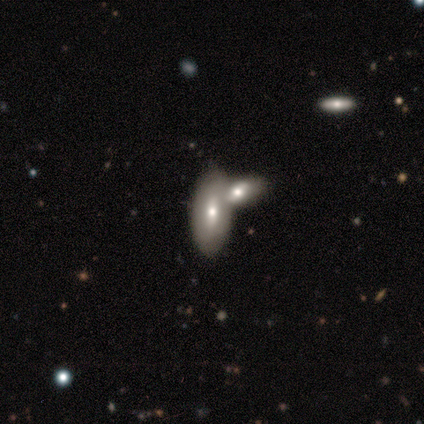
A smooth galaxy with no disk features (40%, tied with featured or disk) that is in between round and cigar-shaped (50%, tied with cigar-shaped).

Vote fractions:
- Smooth or featured? smooth: 40% (tied) / featured or disk: 40% (tied) / star or artifact: 20%
- How rounded? in between: 50% (tied) / cigar-shaped: 50% (tied) / round: 0%
- Merging? merger: 75% / none: 25% / minor disturbance: 0% / major disturbance: 0%